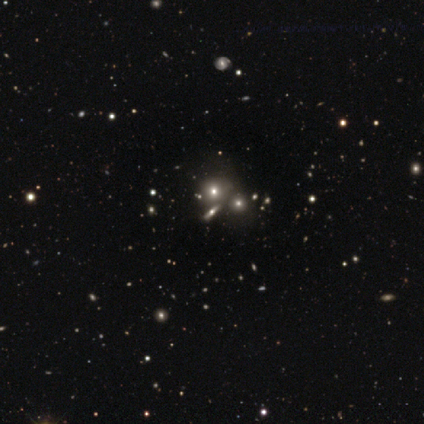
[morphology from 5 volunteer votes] A smooth galaxy with no disk features (60%) that is in between round and cigar-shaped (67%). Merging: none (60%).